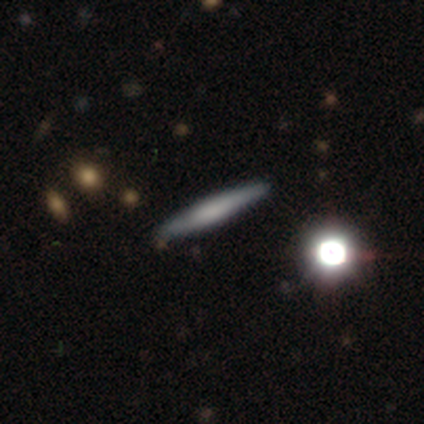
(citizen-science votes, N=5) This appears to be a featured or disk galaxy (60%) viewed edge-on (67%) with a boxy central bulge (50%, tied with none). Merging: none (80%).